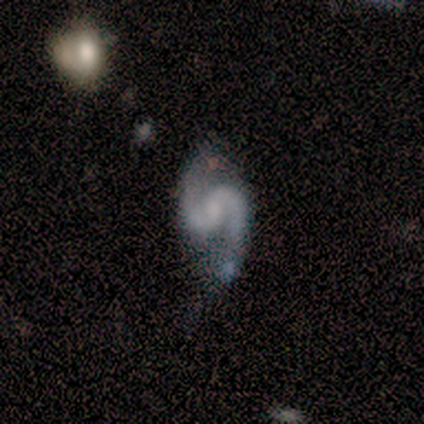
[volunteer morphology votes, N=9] Smooth or featured? featured or disk (89%)
Edge-on disk? no (100%)
Bar? no (88%)
Spiral arms? yes (100%)
Spiral winding? medium (62%)
Spiral arm count? 2 (100%)
Bulge size? small (50%)
Merging? none (75%)